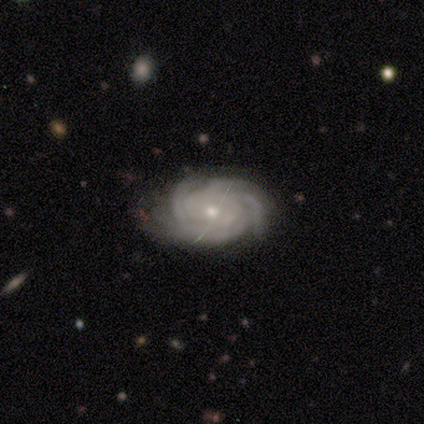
This appears to be a featured or disk galaxy (100%) with no bar (60%), 4 (60%) tight (100%) spiral arms (100%) and a small central bulge (60%). Merging: none (100%).